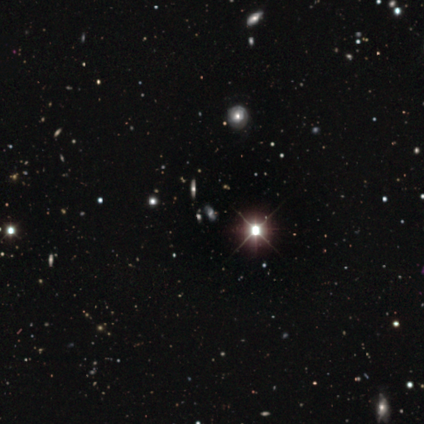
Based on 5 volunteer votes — featured or disk 60%, star or artifact 40%, smooth 0%. Down the decision tree: edge-on disk — yes (67%); edge-on bulge — rounded (100%); merging — none (100%).